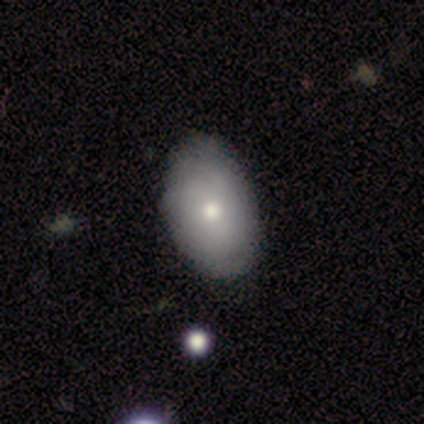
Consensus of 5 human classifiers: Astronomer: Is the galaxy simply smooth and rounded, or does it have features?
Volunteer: featured or disk — 60% (runner-up: smooth, 40%).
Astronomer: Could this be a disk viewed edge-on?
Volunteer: no — 100%.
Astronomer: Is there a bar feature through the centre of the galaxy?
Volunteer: no — 100%.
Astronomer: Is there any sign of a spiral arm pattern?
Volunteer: no — 100%.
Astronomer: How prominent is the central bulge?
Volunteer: small — 67%.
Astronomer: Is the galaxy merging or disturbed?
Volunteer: none — 100%.